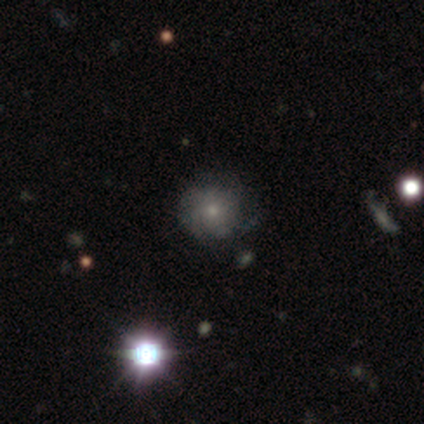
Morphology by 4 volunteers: Smooth or featured? 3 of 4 (75%) said smooth. How rounded? 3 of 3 (100%) said round. Merging? 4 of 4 (100%) said none.